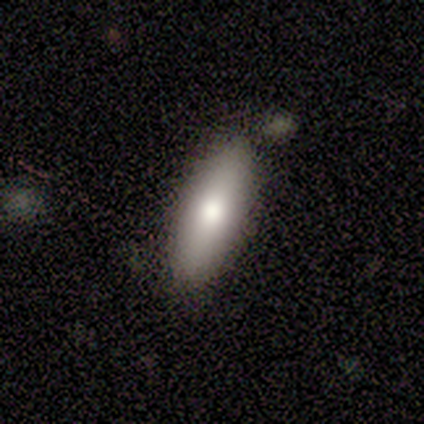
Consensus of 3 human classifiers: Morphology: type=smooth (100%); roundness=in between (67%); merging=none (100%).